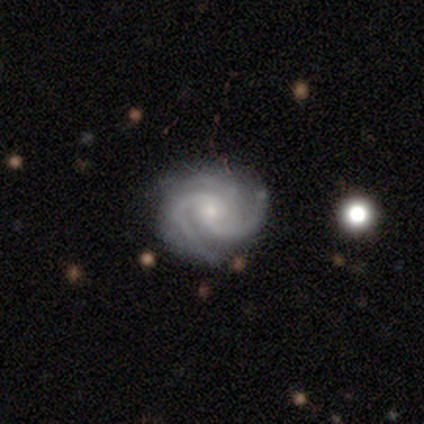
Smooth or featured? featured or disk (86%)
Edge-on disk? no (100%)
Bar? no (83%)
Spiral arms? yes (83%)
Spiral winding? medium (60%)
Spiral arm count? 3 (80%)
Bulge size? small (100%)
Merging? none (100%)